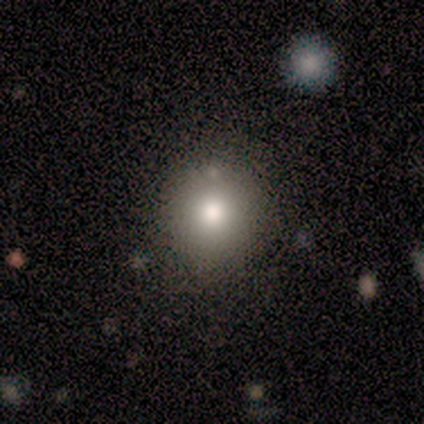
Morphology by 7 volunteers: smooth_or_featured: smooth (p=0.71) [alt: featured or disk p=0.29]
how_rounded: round (p=1.00)
merging: none (p=0.86) [alt: minor disturbance p=0.14]